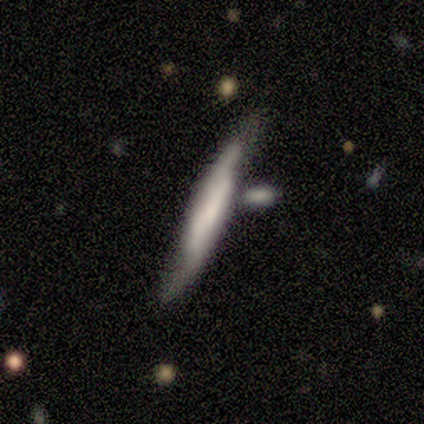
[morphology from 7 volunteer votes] Smooth or featured: smooth — 57% (featured or disk — 29%)
How rounded: cigar-shaped — 100%
Merging: none — 67% (minor disturbance — 33%)